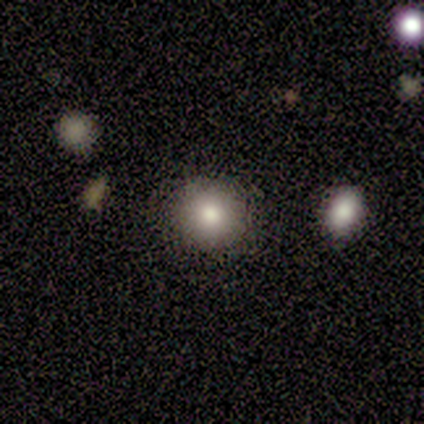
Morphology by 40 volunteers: smooth_or_featured: smooth (p=0.93) [alt: star or artifact p=0.05]
how_rounded: round (p=0.97) [alt: in between p=0.03]
merging: none (p=0.87) [alt: merger p=0.08]